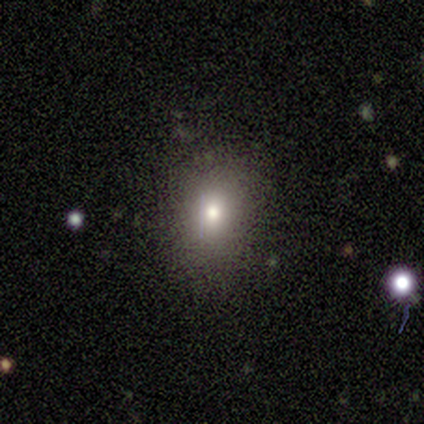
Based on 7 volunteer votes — Smooth or featured?
  - smooth: 71% *
  - star or artifact: 29%
  - featured or disk: 0%
How rounded?
  - in between: 60% *
  - round: 40%
  - cigar-shaped: 0%
Merging?
  - minor disturbance: 60% *
  - none: 40%
  - major disturbance: 0%
  - merger: 0%